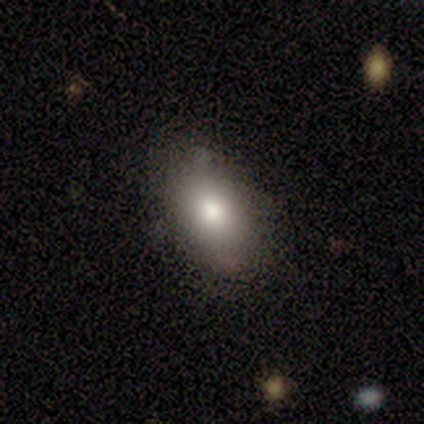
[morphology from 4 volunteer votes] Consensus on every question: smooth or featured — smooth (100%); how rounded — in between (100%); merging — none (100%).